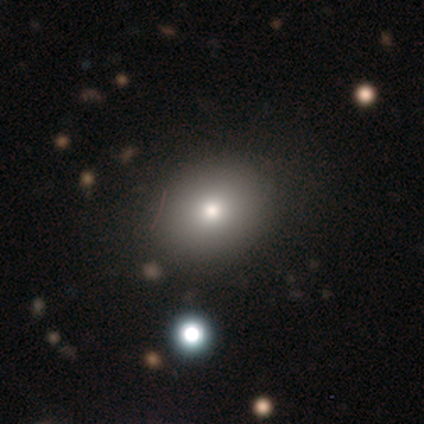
Overall: smooth (100%). How rounded: round (60%; in between 40%). Merging: none (100%).